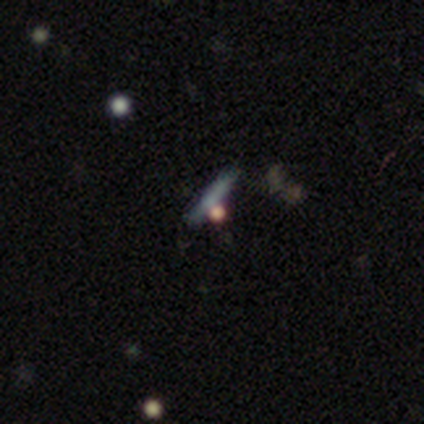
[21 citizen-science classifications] Overall: star or artifact (43%; smooth 38%).